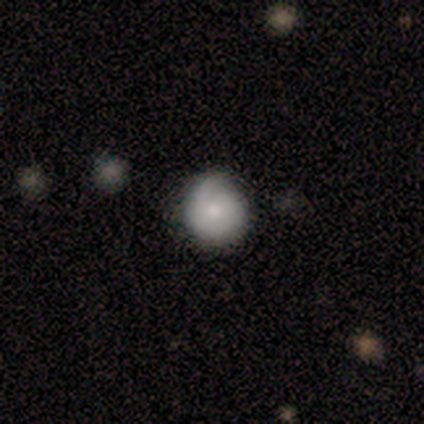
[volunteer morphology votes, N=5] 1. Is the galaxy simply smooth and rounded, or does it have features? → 60% smooth, 40% featured or disk, 0% star or artifact.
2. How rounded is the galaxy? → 67% round, 33% in between, 0% cigar-shaped.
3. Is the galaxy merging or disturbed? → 80% none, 20% minor disturbance, 0% major disturbance, 0% merger.